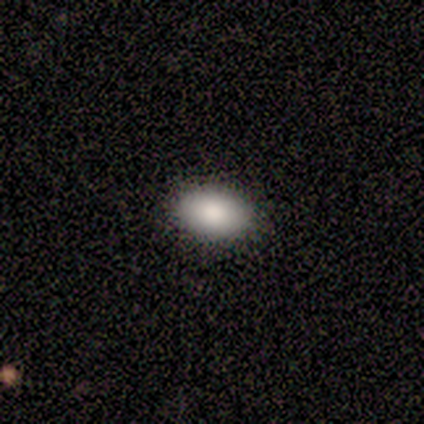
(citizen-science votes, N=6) Smooth or featured: smooth — 83% (featured or disk — 17%)
How rounded: in between — 80% (round — 20%)
Merging: none — 83% (minor disturbance — 17%)